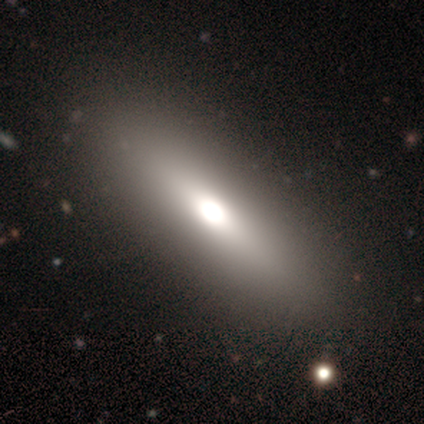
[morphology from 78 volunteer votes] A smooth galaxy with no disk features (64%) that is in between round and cigar-shaped (52%). Merging: none (78%).